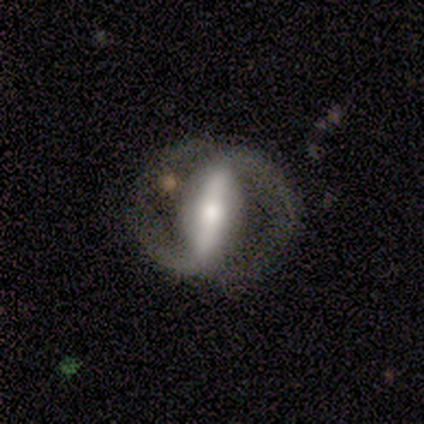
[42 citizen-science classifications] Morphology: type=featured or disk (86%); edge-on=no (83%); bar=strong (87%); spiral arms=yes (87%); winding=medium (46%); arm count=2 (88%); bulge=moderate (57%); merging=none (65%).